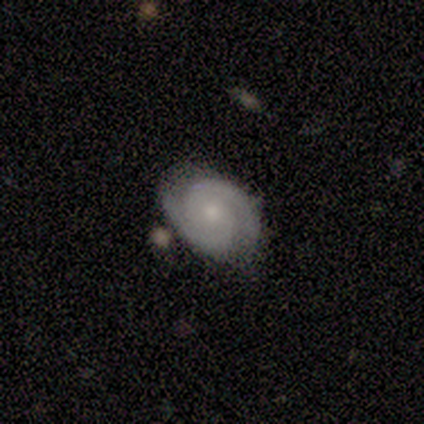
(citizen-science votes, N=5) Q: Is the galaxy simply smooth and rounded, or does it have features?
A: featured or disk — 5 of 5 (100%).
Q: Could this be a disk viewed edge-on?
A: no — 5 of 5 (100%).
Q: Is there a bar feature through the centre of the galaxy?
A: no — 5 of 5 (100%).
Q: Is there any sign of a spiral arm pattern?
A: yes — 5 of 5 (100%).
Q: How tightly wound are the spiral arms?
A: tight — 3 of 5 (60%).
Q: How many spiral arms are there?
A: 2 — 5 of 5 (100%).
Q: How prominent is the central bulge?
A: small — 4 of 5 (80%).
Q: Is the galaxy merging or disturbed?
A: none — 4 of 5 (80%).